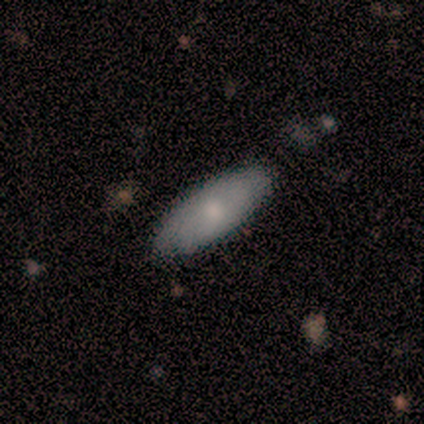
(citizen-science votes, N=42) Smooth or featured? 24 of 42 (57%) said smooth. How rounded? 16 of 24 (67%) said in between. Merging? 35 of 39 (90%) said none.